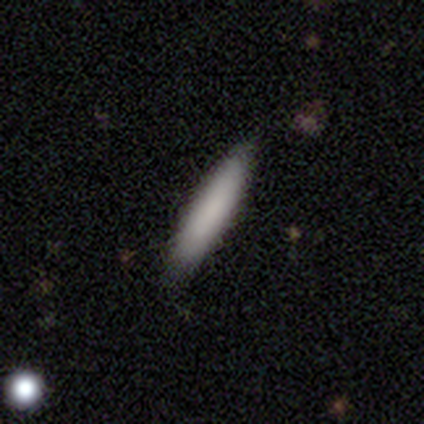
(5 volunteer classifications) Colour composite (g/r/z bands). It shows a smooth galaxy with no disk features (80%) that is cigar-shaped (100%). Merging: none (50%, tied with minor disturbance).